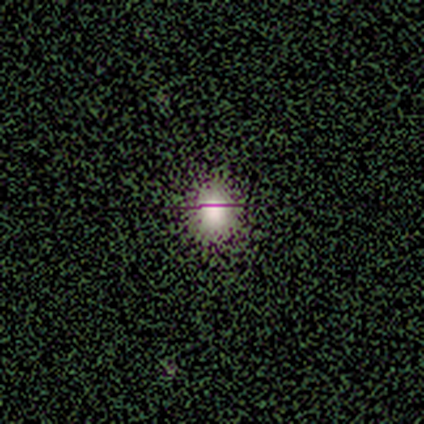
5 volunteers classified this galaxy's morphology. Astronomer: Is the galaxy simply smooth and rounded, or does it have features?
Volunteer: smooth — 60%.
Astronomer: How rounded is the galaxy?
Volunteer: round — 100%.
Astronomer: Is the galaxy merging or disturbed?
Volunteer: none — 100%.